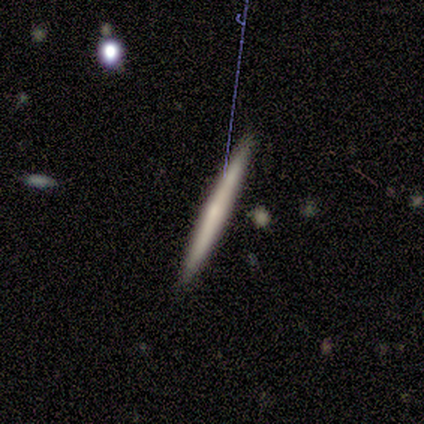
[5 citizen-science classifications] This is clearly a smooth galaxy (80%). How rounded: clearly cigar-shaped (100%). Merging: clearly none (100%).